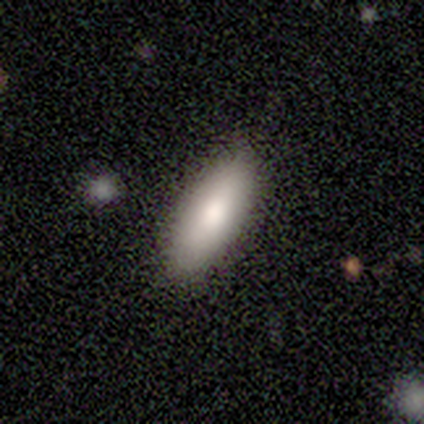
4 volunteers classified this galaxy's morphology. Smooth or featured? smooth (100%)
How rounded? in between (75%)
Merging? none (100%)